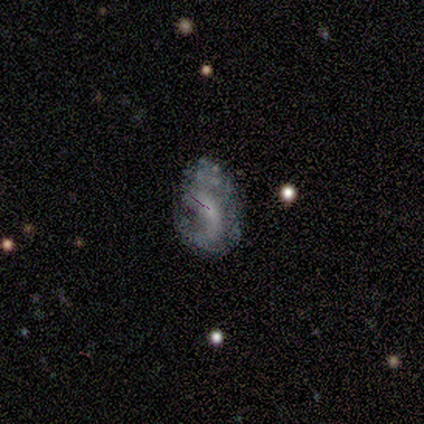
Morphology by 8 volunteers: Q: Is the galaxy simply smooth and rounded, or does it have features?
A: featured or disk — 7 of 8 (88%).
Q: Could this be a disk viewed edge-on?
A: no — 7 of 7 (100%).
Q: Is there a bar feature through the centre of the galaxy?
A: weak — 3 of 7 (43%, tied with no).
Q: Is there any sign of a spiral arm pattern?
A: yes — 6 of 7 (86%).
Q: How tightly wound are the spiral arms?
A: loose — 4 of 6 (67%).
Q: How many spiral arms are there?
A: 2 — 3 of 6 (50%).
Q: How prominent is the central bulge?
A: small — 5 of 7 (71%).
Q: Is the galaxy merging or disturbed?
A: none — 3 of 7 (43%).